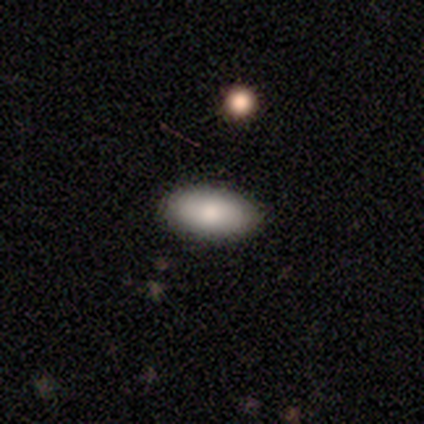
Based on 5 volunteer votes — smooth_or_featured: smooth (p=0.60) [alt: featured or disk p=0.20]
how_rounded: in between (p=1.00)
merging: none (p=1.00)